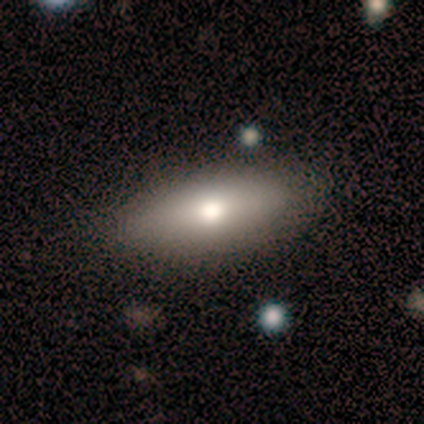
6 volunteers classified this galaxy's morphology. Consensus on every question: smooth or featured — smooth (100%); how rounded — in between (100%); merging — none (100%).